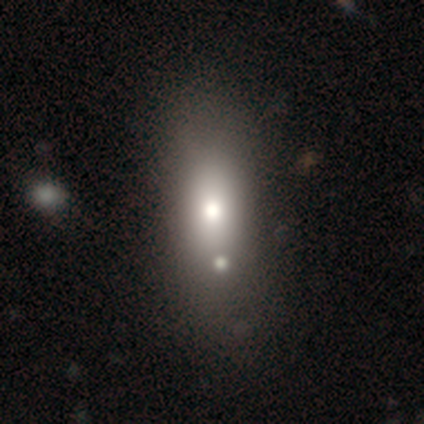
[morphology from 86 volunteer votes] A smooth galaxy with no disk features (63%) that is in between round and cigar-shaped (72%).

Vote fractions:
- Smooth or featured? smooth: 63% / featured or disk: 23% / star or artifact: 14%
- How rounded? in between: 72% / cigar-shaped: 19% / round: 9%
- Merging? none: 62% / minor disturbance: 19% / merger: 16% / major disturbance: 3%